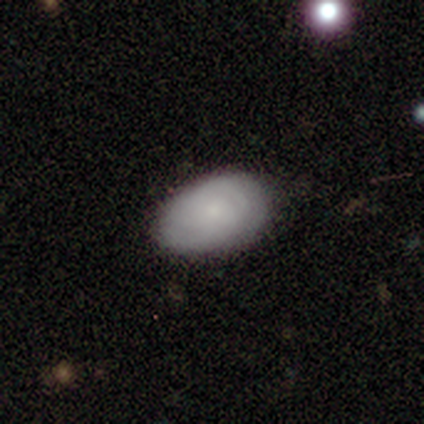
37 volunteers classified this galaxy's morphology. smooth 65%, featured or disk 32%, star or artifact 3%. Down the decision tree: how rounded — in between (88%); merging — none (89%).